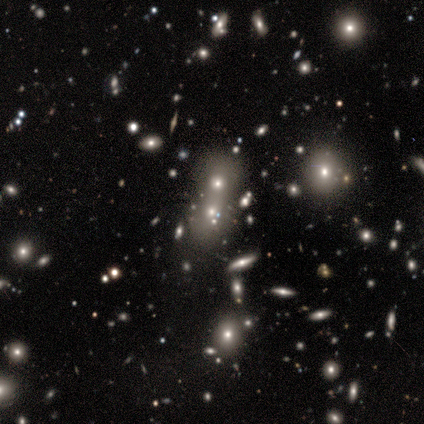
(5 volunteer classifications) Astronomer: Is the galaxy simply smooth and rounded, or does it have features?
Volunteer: star or artifact — 60% (runner-up: smooth, 40%).